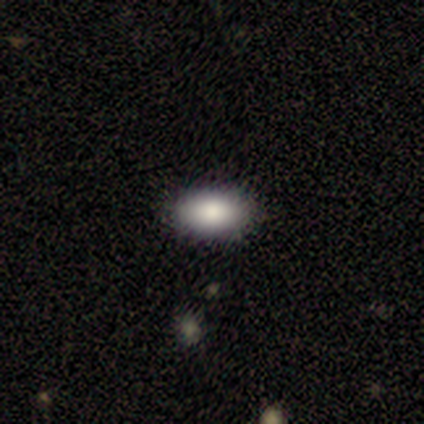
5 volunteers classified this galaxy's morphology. Smooth or featured: smooth — 80% (star or artifact — 20%)
How rounded: in between — 75% (round — 25%)
Merging: none — 50% (minor disturbance — 25%)